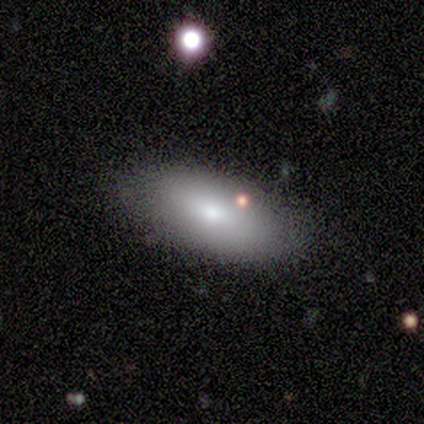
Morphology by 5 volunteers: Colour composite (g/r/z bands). It shows a smooth galaxy with no disk features (60%) that is in between round and cigar-shaped (100%). Merging: none (100%).